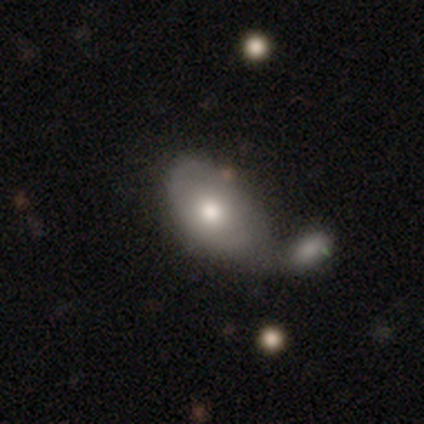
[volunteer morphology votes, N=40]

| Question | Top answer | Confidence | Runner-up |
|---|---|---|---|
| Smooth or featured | smooth | 62% | featured or disk (25%) |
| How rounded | in between | 100% | — |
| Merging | merger | 43% | none (26%) |